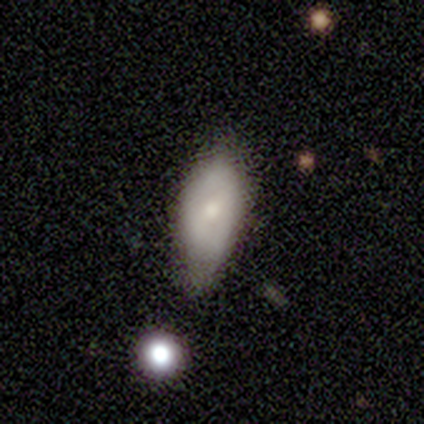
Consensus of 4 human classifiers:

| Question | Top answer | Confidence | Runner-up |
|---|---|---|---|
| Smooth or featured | smooth | 50% | tied: featured or disk (50%) |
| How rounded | in between | 100% | — |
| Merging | minor disturbance | 75% | none (25%) |